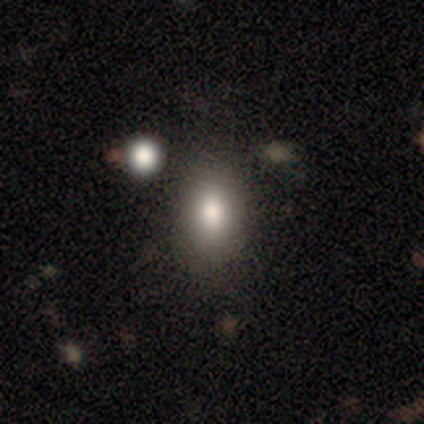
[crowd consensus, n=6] Overall: smooth (83%). How rounded: in between (80%). Merging: none (83%).